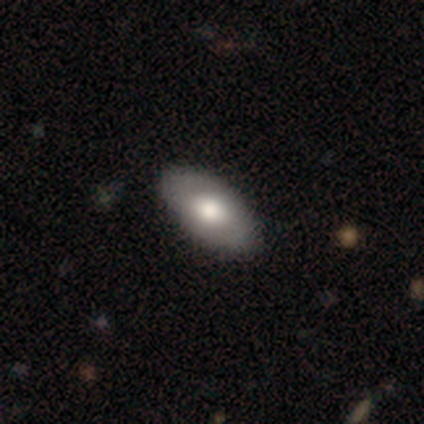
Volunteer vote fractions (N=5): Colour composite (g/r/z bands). It shows a featured or disk galaxy (60%) with a weak bar (50%, tied with no), no spiral arms (100%) and a large central bulge (100%). Merging: none (100%).